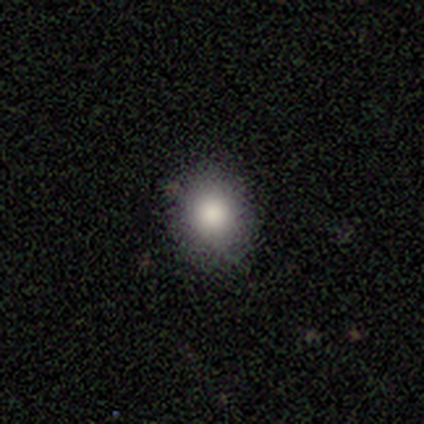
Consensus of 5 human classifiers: Morphology: type=smooth (100%); roundness=round (60%); merging=none (100%).